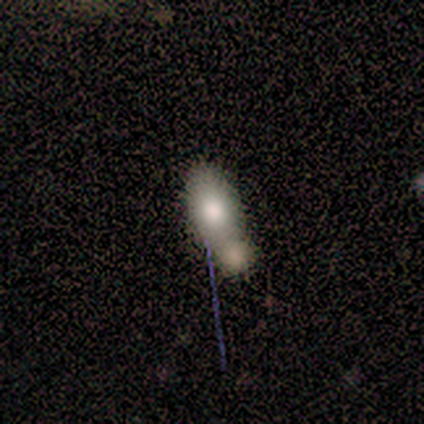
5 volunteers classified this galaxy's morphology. Smooth or featured: smooth — 60% (featured or disk — 20%)
How rounded: in between — 100%
Merging: merger — 50% (none — 25%)